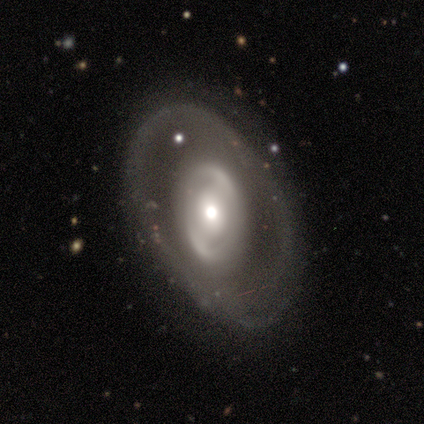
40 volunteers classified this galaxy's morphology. type=featured or disk (82%); edge-on=no (91%); bar=no (53%); spiral arms=yes (53%); winding=tight (38%, tied with medium); arm count=2 (62%); bulge=moderate (47%); merging=none (66%).